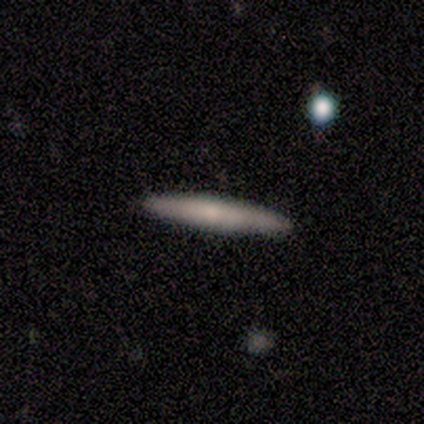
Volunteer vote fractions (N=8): Smooth or featured: smooth — 50% (tied with featured or disk — 50%)
How rounded: cigar-shaped — 100%
Merging: none — 88% (minor disturbance — 12%)